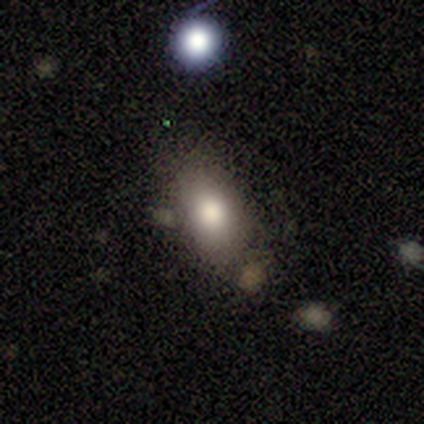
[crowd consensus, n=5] Q: Smooth or featured?
A: smooth (60%); runner-up: featured or disk (40%)
Q: How rounded?
A: in between (100%)
Q: Merging?
A: none (60%); runner-up: minor disturbance (40%)